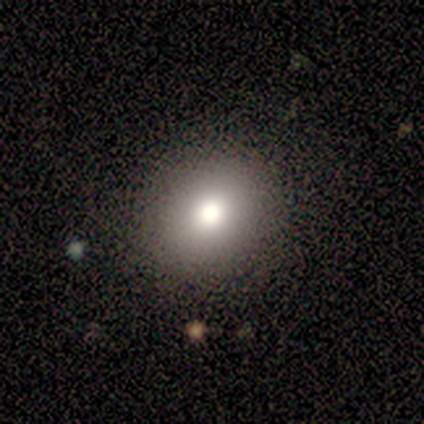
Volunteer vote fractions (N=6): A smooth galaxy with no disk features (67%) that is round (75%). Merging: none (83%).